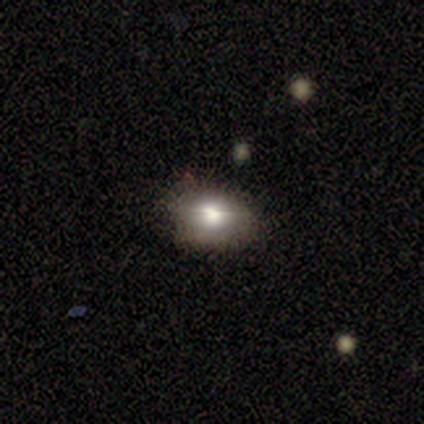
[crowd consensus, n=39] Smooth or featured?
  - smooth: 59% *
  - featured or disk: 26%
  - star or artifact: 15%
How rounded?
  - in between: 78% *
  - round: 22%
  - cigar-shaped: 0%
Merging?
  - none: 76% *
  - minor disturbance: 21%
  - major disturbance: 3%
  - merger: 0%